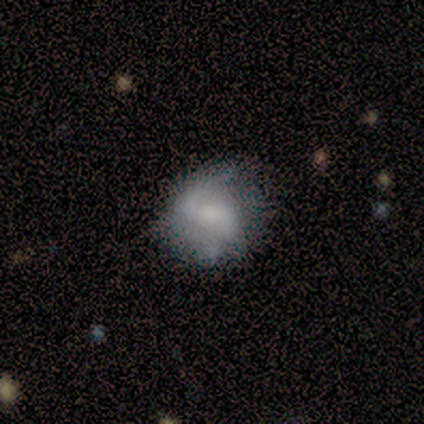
Smooth or featured: featured or disk — 80% (smooth — 20%)
Edge-on disk: no — 100%
Bar: strong — 50% (tied with no — 50%)
Spiral arms: yes — 75% (no — 25%)
Spiral winding: tight — 67% (loose — 33%)
Spiral arm count: 2 — 100%
Bulge size: moderate — 75% (none — 25%)
Merging: none — 60% (minor disturbance — 20%)